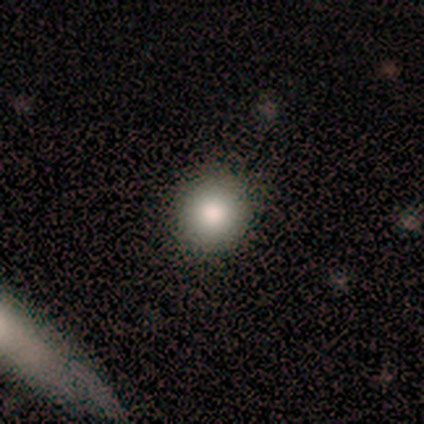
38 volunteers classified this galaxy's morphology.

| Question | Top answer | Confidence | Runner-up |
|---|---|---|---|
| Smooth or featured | smooth | 84% | featured or disk (11%) |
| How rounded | round | 97% | in between (3%) |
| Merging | none | 97% | minor disturbance (3%) |